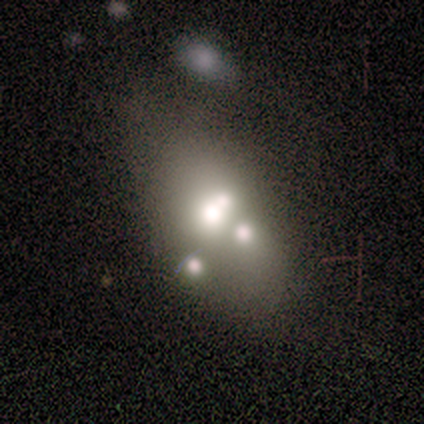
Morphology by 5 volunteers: Smooth or featured?
  - smooth: 60% *
  - featured or disk: 40%
  - star or artifact: 0%
How rounded?
  - in between: 100% *
  - round: 0%
  - cigar-shaped: 0%
Merging?
  - none: 80% *
  - merger: 20%
  - minor disturbance: 0%
  - major disturbance: 0%